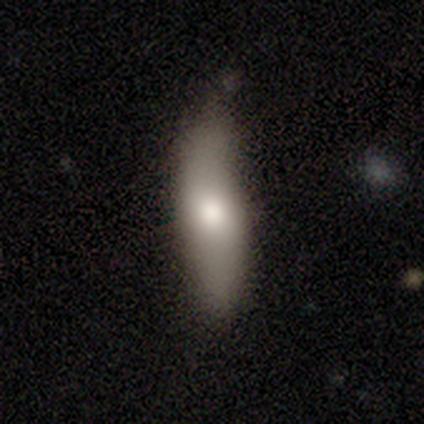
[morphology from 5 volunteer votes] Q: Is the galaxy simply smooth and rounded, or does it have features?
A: smooth — 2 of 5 (40%, tied with star or artifact).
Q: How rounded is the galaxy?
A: in between — 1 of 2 (50%, tied with cigar-shaped).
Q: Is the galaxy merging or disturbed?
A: none — 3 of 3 (100%).